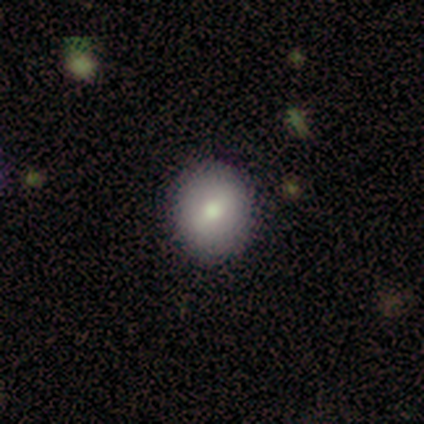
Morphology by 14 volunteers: smooth-or-featured: smooth: 79% | featured or disk: 21% | star or artifact: 0%
  how-rounded: round: 73% | in between: 27% | cigar-shaped: 0%
  merging: none: 93% | major disturbance: 7% | minor disturbance: 0% | merger: 0%